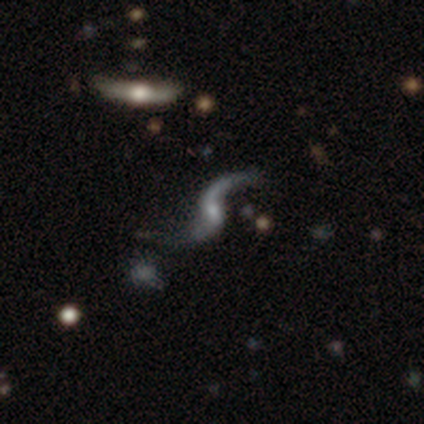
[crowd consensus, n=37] Morphology: type=featured or disk (89%); edge-on=no (97%); bar=weak (53%); spiral arms=yes (97%); winding=loose (97%); arm count=2 (94%); bulge=small (56%); merging=none (58%).